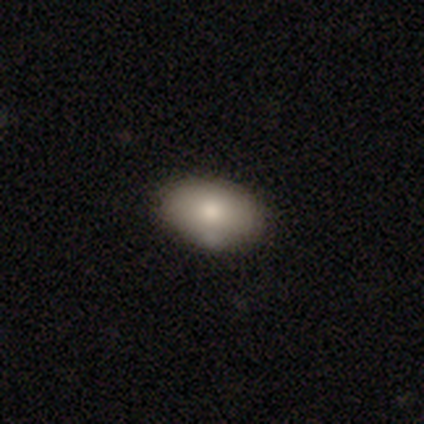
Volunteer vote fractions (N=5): smooth_or_featured: smooth (p=0.80) [alt: featured or disk p=0.20]
how_rounded: in between (p=1.00)
merging: none (p=0.60) [alt: merger p=0.40]